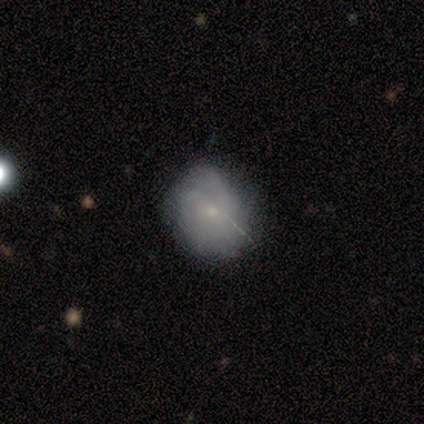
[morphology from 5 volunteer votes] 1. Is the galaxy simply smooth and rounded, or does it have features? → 80% smooth, 20% featured or disk, 0% star or artifact.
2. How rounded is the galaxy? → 100% round, 0% in between, 0% cigar-shaped.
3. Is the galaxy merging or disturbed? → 100% none, 0% minor disturbance, 0% major disturbance, 0% merger.